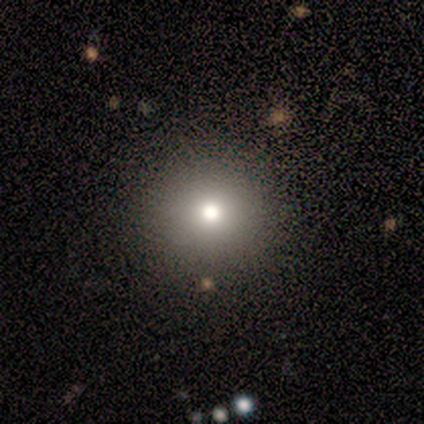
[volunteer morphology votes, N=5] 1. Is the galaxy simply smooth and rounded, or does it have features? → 60% smooth, 20% featured or disk, 20% star or artifact.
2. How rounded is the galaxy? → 100% round, 0% in between, 0% cigar-shaped.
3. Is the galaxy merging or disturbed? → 100% none, 0% minor disturbance, 0% major disturbance, 0% merger.